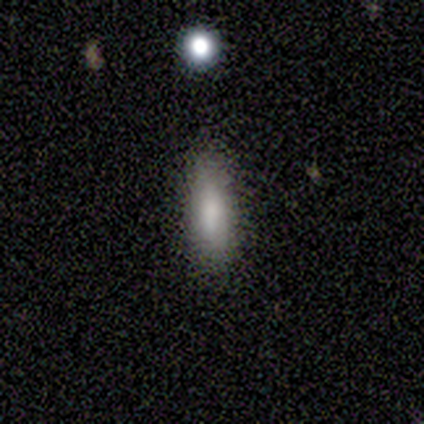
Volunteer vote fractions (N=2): Smooth or featured: smooth — 100%
How rounded: in between — 50% (tied with cigar-shaped — 50%)
Merging: none — 100%